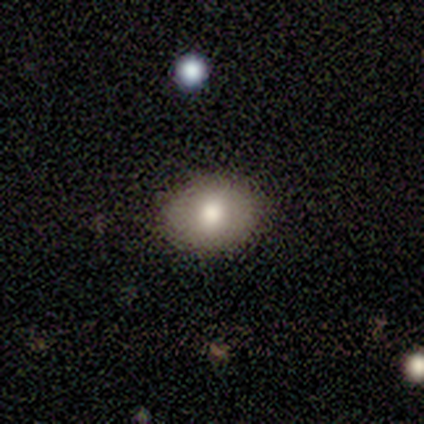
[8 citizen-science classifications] Smooth or featured?
  - smooth: 88% *
  - featured or disk: 12%
  - star or artifact: 0%
How rounded?
  - in between: 57% *
  - round: 43%
  - cigar-shaped: 0%
Merging?
  - none: 75% *
  - minor disturbance: 25%
  - major disturbance: 0%
  - merger: 0%